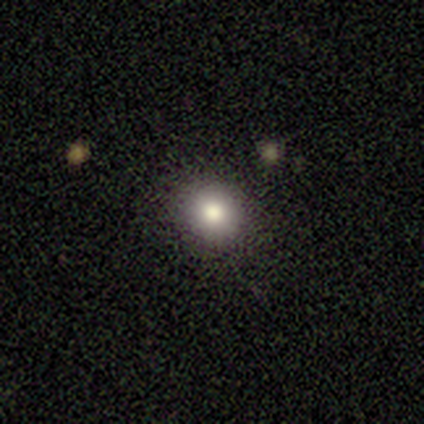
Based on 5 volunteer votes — This is likely a smooth galaxy (60%). How rounded: clearly round (100%). Merging: likely none (75%).